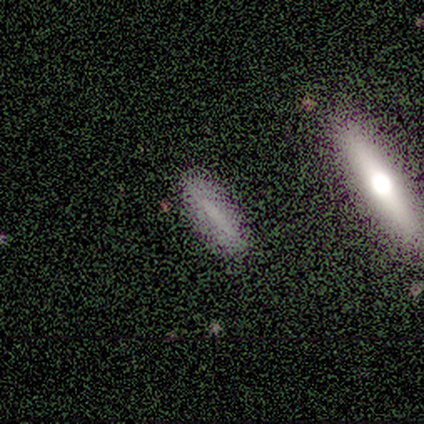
Morphology: type=smooth (75%); roundness=cigar-shaped (100%); merging=none (67%).